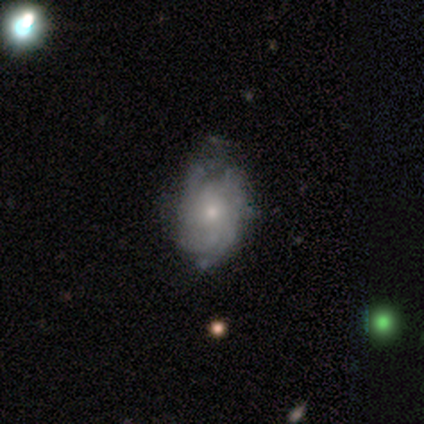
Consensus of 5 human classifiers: smooth_or_featured: featured or disk (p=0.80) [alt: smooth p=0.20]
disk_edge_on: no (p=0.75) [alt: yes p=0.25]
bar: no (p=1.00)
has_spiral_arms: yes (p=1.00)
spiral_winding: tight (p=0.67) [alt: medium p=0.33]
spiral_arm_count: can't tell (p=0.67) [alt: 4 p=0.33]
bulge_size: small (p=1.00)
merging: none (p=0.80) [alt: minor disturbance p=0.20]